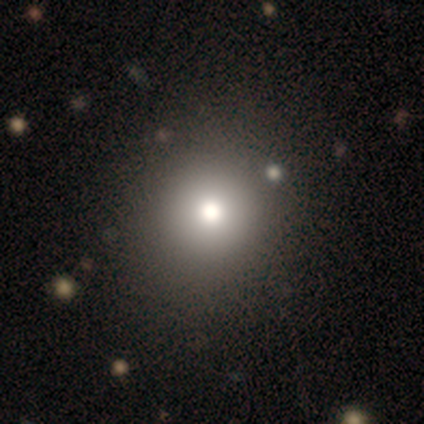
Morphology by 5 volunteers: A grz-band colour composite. It shows a smooth galaxy with no disk features (100%) that is round (100%). Merging: none (100%).